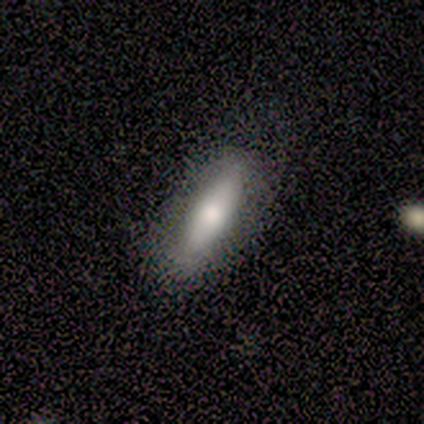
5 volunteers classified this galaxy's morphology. This appears to be a smooth galaxy with no disk features (80%) that is in between round and cigar-shaped (50%, tied with cigar-shaped). Merging: none (75%).